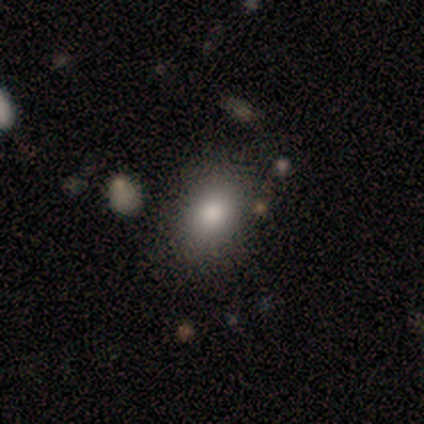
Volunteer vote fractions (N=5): Morphology: type=smooth (100%); roundness=in between (80%); merging=none (100%).